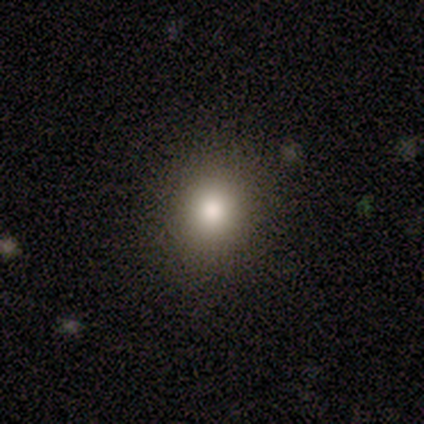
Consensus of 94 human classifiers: smooth-or-featured: smooth: 71% | star or artifact: 19% | featured or disk: 10%
  how-rounded: round: 94% | in between: 6% | cigar-shaped: 0%
  merging: none: 97% | minor disturbance: 3% | major disturbance: 0% | merger: 0%